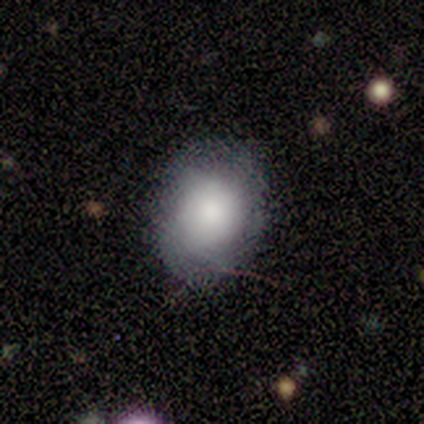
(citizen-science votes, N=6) Smooth or featured?
  - smooth: 83% *
  - featured or disk: 17%
  - star or artifact: 0%
How rounded?
  - round: 60% *
  - in between: 40%
  - cigar-shaped: 0%
Merging?
  - none: 67% *
  - minor disturbance: 17%
  - major disturbance: 17%
  - merger: 0%